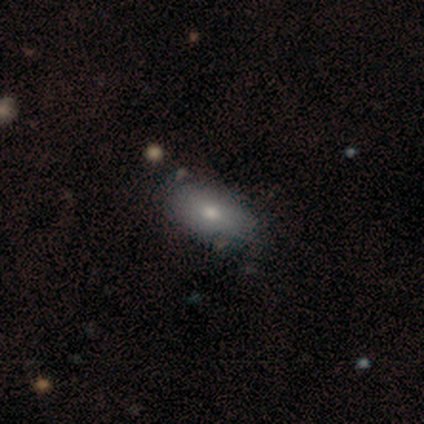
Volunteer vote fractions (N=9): Smooth or featured: smooth — 67% (featured or disk — 33%)
How rounded: in between — 100%
Merging: none — 67% (minor disturbance — 33%)